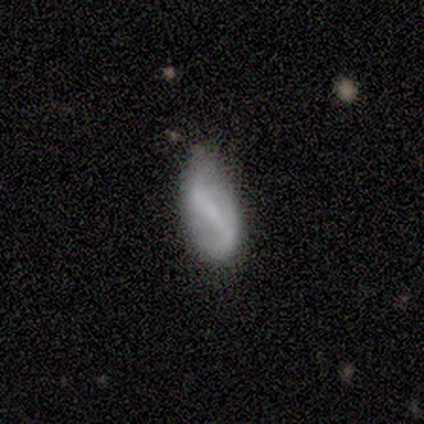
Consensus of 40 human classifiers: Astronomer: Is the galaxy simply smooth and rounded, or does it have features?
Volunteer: featured or disk — 60%.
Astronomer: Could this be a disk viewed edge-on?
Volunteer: no — 96%.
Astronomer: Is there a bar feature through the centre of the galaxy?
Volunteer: strong — 43% (runner-up: weak, 39%).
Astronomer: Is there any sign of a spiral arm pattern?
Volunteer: no — 52% (runner-up: yes, 48%).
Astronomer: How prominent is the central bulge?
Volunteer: small — 48%, tied with none at 48%.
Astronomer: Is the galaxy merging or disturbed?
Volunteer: none — 50% (runner-up: minor disturbance, 47%).